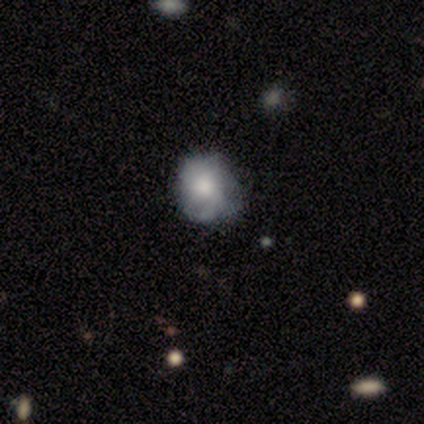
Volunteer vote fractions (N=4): smooth 75%, star or artifact 25%, featured or disk 0%. Down the decision tree: how rounded — round (67%); merging — none (100%).